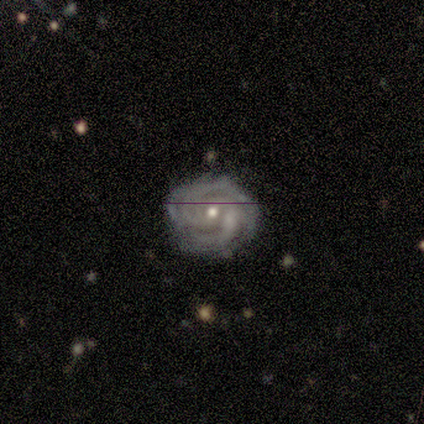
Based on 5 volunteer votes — A featured or disk galaxy (100%) with no bar (80%), 3 (80%) tight (100%) spiral arms (100%) and a small central bulge (60%).

Vote fractions:
- Smooth or featured? featured or disk: 100% / smooth: 0% / star or artifact: 0%
- Edge-on disk? no: 100% / yes: 0%
- Bar? no: 80% / weak: 20% / strong: 0%
- Spiral arms? yes: 100% / no: 0%
- Spiral winding? tight: 100% / medium: 0% / loose: 0%
- Spiral arm count? 3: 80% / 4: 20% / 1: 0% / 2: 0% / more than 4: 0% / can't tell: 0%
- Bulge size? small: 60% / moderate: 40% / dominant: 0% / large: 0% / none: 0%
- Merging? none: 60% / minor disturbance: 40% / major disturbance: 0% / merger: 0%